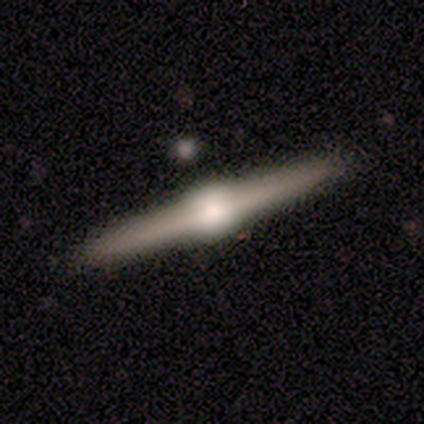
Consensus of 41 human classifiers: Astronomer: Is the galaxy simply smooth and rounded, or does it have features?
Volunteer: featured or disk — 95%.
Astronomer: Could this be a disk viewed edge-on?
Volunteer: yes — 97%.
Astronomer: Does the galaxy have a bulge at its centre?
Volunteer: rounded — 87%.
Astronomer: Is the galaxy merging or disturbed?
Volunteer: none — 95%.